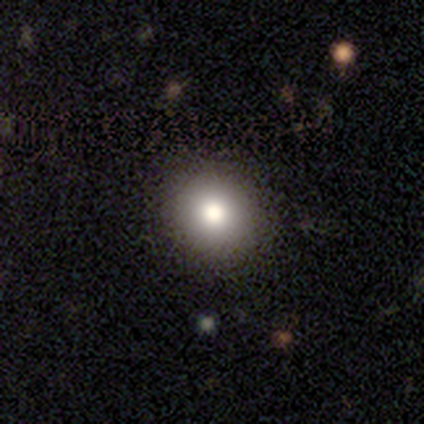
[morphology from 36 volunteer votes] Smooth or featured?
  - smooth: 94% *
  - featured or disk: 6%
  - star or artifact: 0%
How rounded?
  - round: 85% *
  - in between: 15%
  - cigar-shaped: 0%
Merging?
  - none: 69% *
  - minor disturbance: 6%
  - major disturbance: 3%
  - merger: 0%